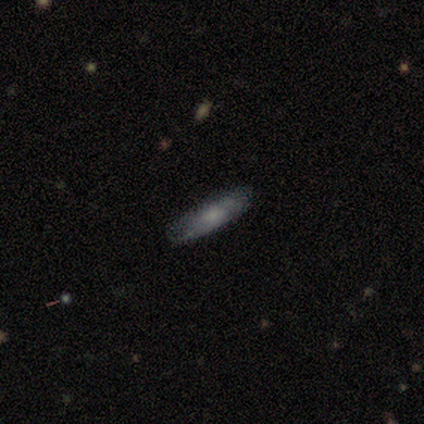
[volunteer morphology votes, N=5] Q: Smooth or featured?
A: smooth (60%); runner-up: featured or disk (40%)
Q: How rounded?
A: in between (67%); runner-up: cigar-shaped (33%)
Q: Merging?
A: minor disturbance (60%); runner-up: none (40%)